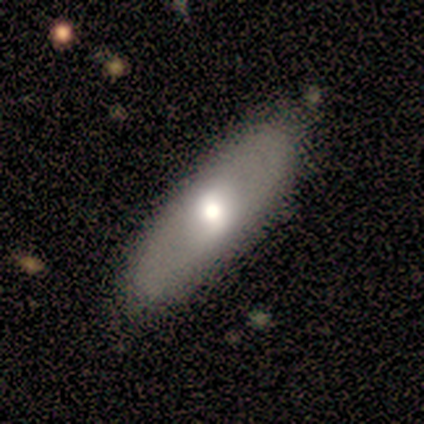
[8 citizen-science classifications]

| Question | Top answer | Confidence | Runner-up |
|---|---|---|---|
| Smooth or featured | smooth | 75% | featured or disk (25%) |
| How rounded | in between | 50% | tied: cigar-shaped (50%) |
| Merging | none | 88% | minor disturbance (12%) |